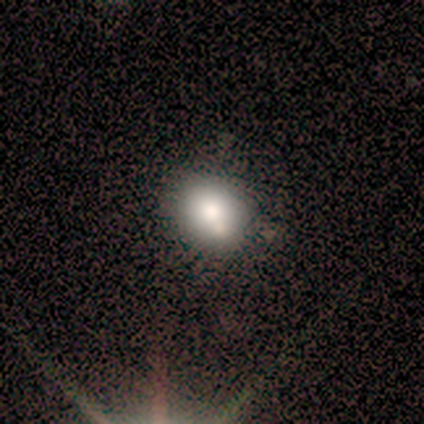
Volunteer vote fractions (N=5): This appears to be a smooth galaxy with no disk features (40%, tied with featured or disk) that is round (100%). Merging: none (75%).